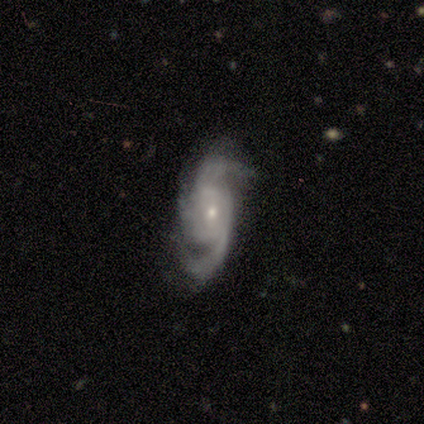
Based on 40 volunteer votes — This is clearly a featured or disk galaxy (90%). It is clearly not viewed edge-on (100%). Bar: likely no (64%). Spiral arm pattern: clearly yes (100%). Spiral arm count: possibly 2 (50%). Spiral winding: possibly medium (50%). Central bulge: likely small (78%). Merging: likely none (72%).